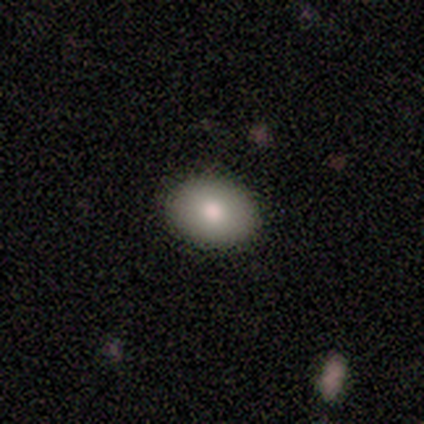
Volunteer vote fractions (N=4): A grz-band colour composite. It shows a smooth galaxy with no disk features (100%) that is in between round and cigar-shaped (75%). Merging: none (100%).